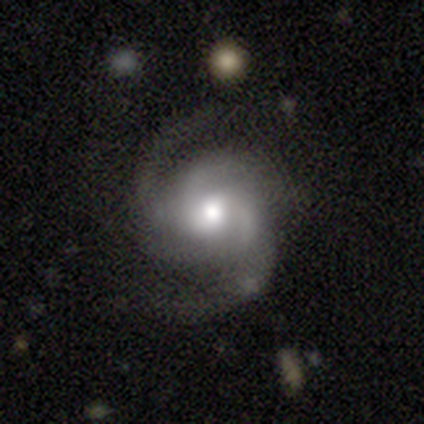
This is clearly a featured or disk galaxy (97%). It is clearly not viewed edge-on (100%). Bar: likely no (76%). Spiral arm pattern: clearly yes (97%). Spiral arm count: marginally 2 (44%). Spiral winding: likely medium (64%). Central bulge: likely moderate (78%). Merging: likely none (78%).